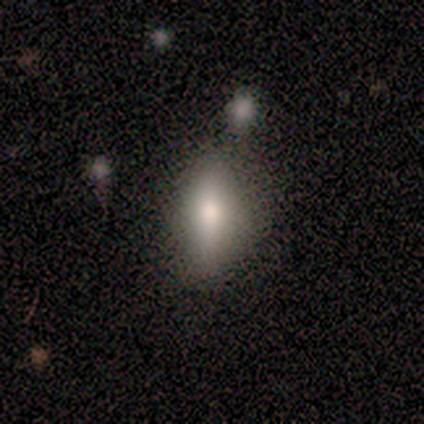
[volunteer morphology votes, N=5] Smooth or featured? 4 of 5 (80%) said smooth. How rounded? 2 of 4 (50%, tied with cigar-shaped) said in between. Merging? 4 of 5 (80%) said none.